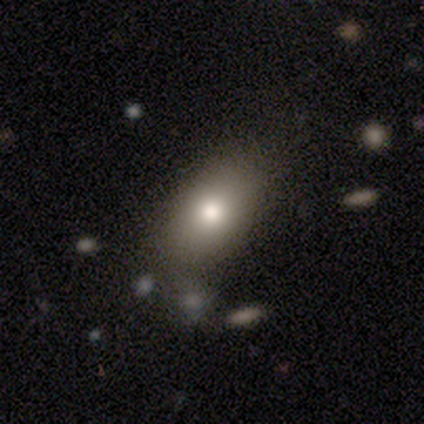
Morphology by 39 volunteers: A smooth galaxy with no disk features (79%) that is in between round and cigar-shaped (87%). Merging: none (76%).